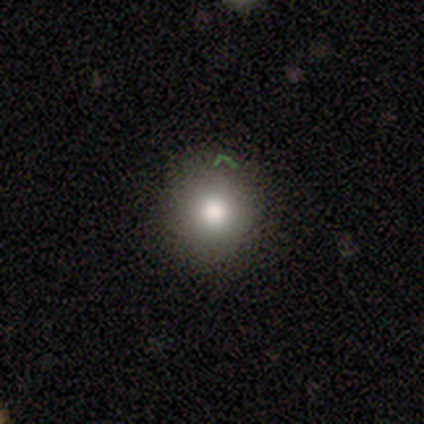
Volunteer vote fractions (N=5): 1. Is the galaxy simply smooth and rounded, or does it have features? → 60% smooth, 20% featured or disk, 20% star or artifact.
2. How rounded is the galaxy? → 100% round, 0% in between, 0% cigar-shaped.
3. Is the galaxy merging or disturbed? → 75% none, 25% minor disturbance, 0% major disturbance, 0% merger.